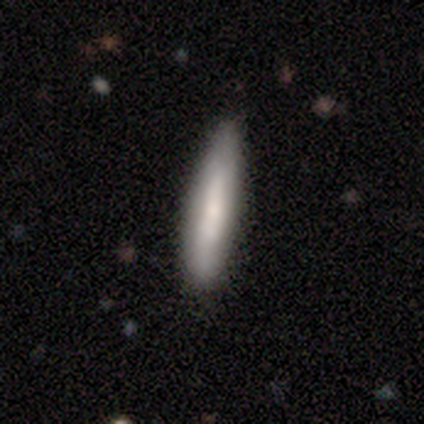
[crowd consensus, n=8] smooth_or_featured: smooth (p=0.62) [alt: featured or disk p=0.38]
how_rounded: cigar-shaped (p=0.80) [alt: in between p=0.20]
merging: none (p=0.75) [alt: minor disturbance p=0.25]